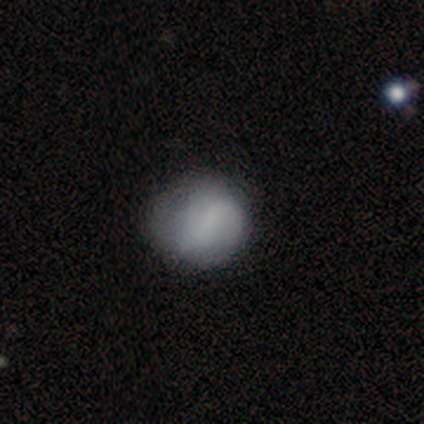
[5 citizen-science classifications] smooth_or_featured: smooth (p=0.80) [alt: featured or disk p=0.20]
how_rounded: round (p=1.00)
merging: none (p=0.60) [alt: minor disturbance p=0.40]